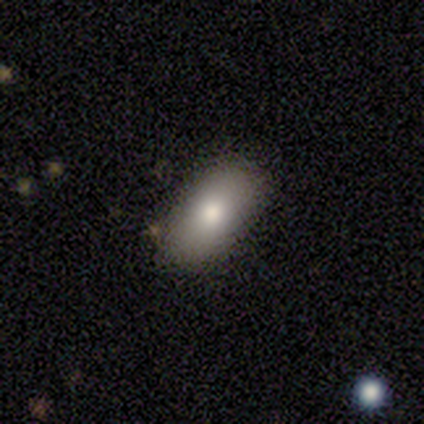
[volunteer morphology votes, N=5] This is clearly a smooth galaxy (100%). How rounded: clearly in between (100%). Merging: clearly none (80%).